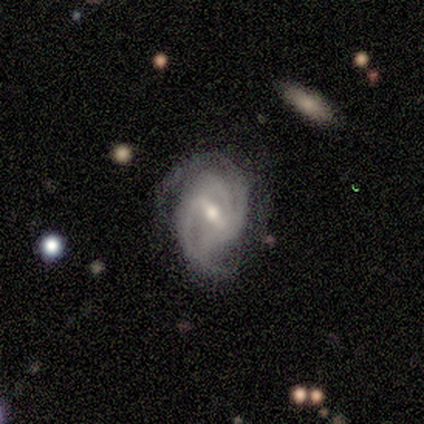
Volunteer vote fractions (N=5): Volunteers were most divided on "spiral winding" (2-way tie): tight: 50%, medium: 50%, loose: 0%; "merging" (2-way tie): none: 40%, major disturbance: 40%, minor disturbance: 20%, merger: 0%. More confident: edge-on disk — no (100%); spiral arms — yes (100%); smooth or featured — featured or disk (80%); bar — strong (75%); bulge size — moderate (75%); spiral arm count — 2 (50%).